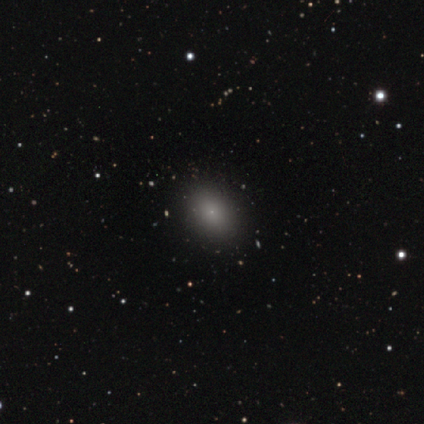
smooth_or_featured: smooth (p=0.78) [alt: featured or disk p=0.22]
how_rounded: in between (p=0.86) [alt: round p=0.14]
merging: none (p=0.89) [alt: minor disturbance p=0.11]